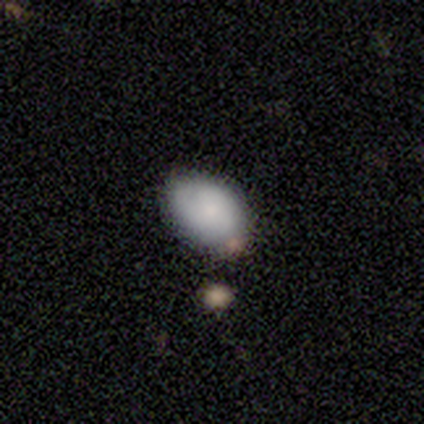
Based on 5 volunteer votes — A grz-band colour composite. It shows a smooth galaxy with no disk features (60%) that is in between round and cigar-shaped (100%). Merging: none (50%).